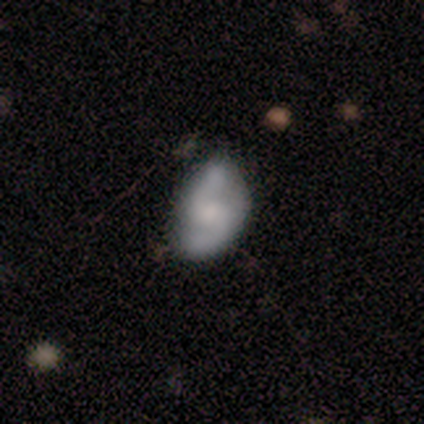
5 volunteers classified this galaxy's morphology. A featured or disk galaxy (100%) with a weak bar (40%, tied with no), 2 (100%) medium (50%, tied with loose) spiral arms (80%) and a moderate central bulge (40%). Merging: minor disturbance (60%).